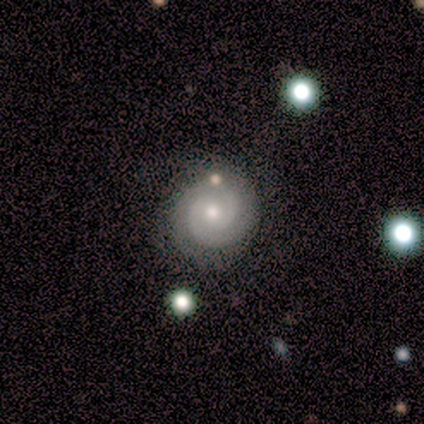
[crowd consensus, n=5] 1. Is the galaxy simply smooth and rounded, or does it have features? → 80% featured or disk, 20% smooth, 0% star or artifact.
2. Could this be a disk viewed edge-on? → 100% no, 0% yes.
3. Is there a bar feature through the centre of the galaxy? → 75% no, 25% weak, 0% strong.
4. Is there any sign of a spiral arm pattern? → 100% yes, 0% no.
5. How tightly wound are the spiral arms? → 50% tight (tied), 50% medium (tied), 0% loose.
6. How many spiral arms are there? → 75% 2, 25% can't tell, 0% 1, 0% 3, 0% 4, 0% more than 4.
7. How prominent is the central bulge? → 50% moderate (tied), 50% small (tied), 0% dominant, 0% large, 0% none.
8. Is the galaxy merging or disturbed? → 80% none, 20% merger, 0% minor disturbance, 0% major disturbance.